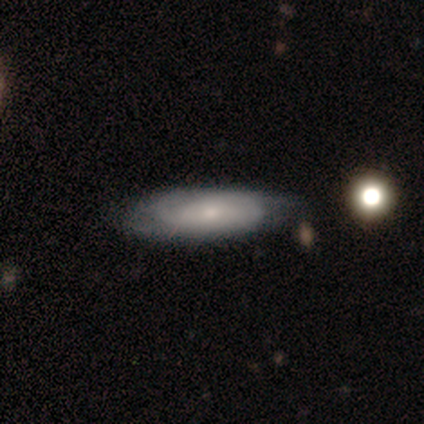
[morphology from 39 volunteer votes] This is possibly a featured or disk galaxy (54%). It is clearly not viewed edge-on (90%). Bar: clearly no (84%). Spiral arm pattern: clearly yes (89%). Spiral arm count: possibly 2 (59%). Spiral winding: possibly tight (59%). Central bulge: possibly small (58%). Merging: marginally none (44%).